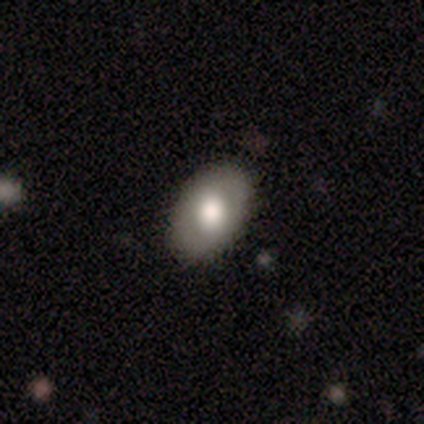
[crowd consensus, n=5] Morphology: type=smooth (40%, tied with featured or disk); roundness=in between (100%); merging=none (100%).